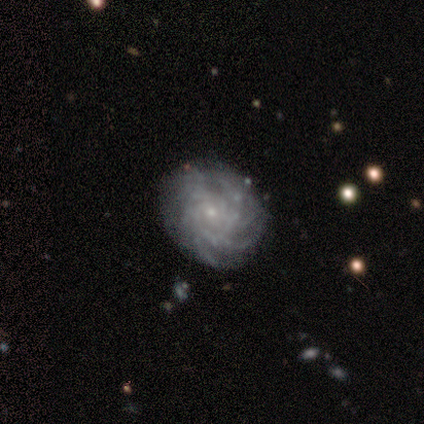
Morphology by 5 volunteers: featured or disk 80%, smooth 20%, star or artifact 0%. Down the decision tree: edge-on disk — no (100%); bar — weak (50%, tied with no); spiral arms — yes (100%); spiral arm count — more than 4 (75%); spiral winding — tight (75%); bulge size — small (100%); merging — none (100%).